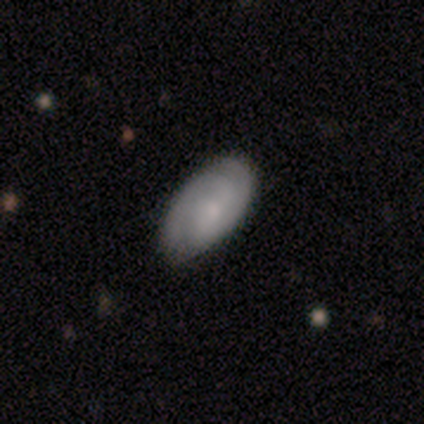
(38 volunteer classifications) A featured or disk galaxy (50%) with no bar (58%), 2 (82%) medium (47%) spiral arms (89%) and a small central bulge (37%).

Vote fractions:
- Smooth or featured? featured or disk: 50% / smooth: 39% / star or artifact: 11%
- Edge-on disk? no: 100% / yes: 0%
- Bar? no: 58% / weak: 32% / strong: 11%
- Spiral arms? yes: 89% / no: 11%
- Spiral winding? medium: 47% / tight: 41% / loose: 12%
- Spiral arm count? 2: 82% / can't tell: 18% / 1: 0% / 3: 0% / 4: 0% / more than 4: 0%
- Bulge size? small: 37% / moderate: 26% / none: 26% / dominant: 5% / large: 5%
- Merging? none: 76% / minor disturbance: 21% / major disturbance: 3% / merger: 0%